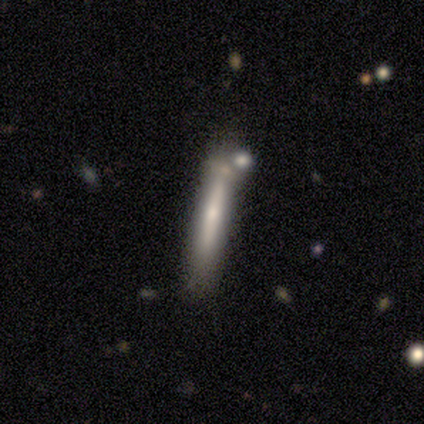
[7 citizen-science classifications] Smooth or featured?
  - featured or disk: 57% *
  - smooth: 43%
  - star or artifact: 0%
Edge-on disk?
  - yes: 100% *
  - no: 0%
Edge-on bulge?
  - rounded: 75% *
  - none: 25%
  - boxy: 0%
Merging?
  - none: 86% *
  - merger: 14%
  - minor disturbance: 0%
  - major disturbance: 0%